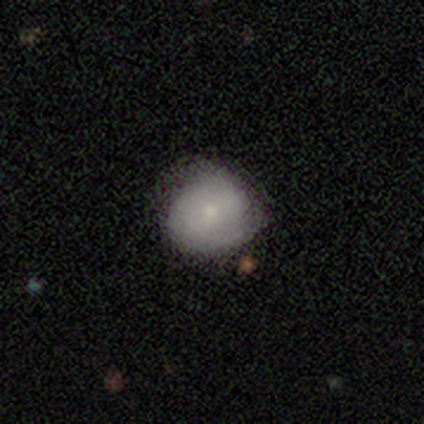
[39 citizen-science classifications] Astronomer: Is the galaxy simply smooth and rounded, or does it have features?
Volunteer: smooth — 59%.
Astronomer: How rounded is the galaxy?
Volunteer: round — 91%.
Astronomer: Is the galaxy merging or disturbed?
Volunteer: none — 79%.